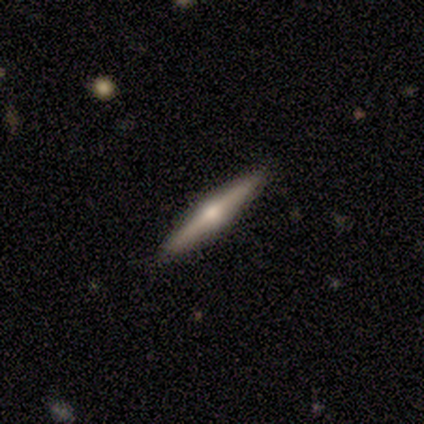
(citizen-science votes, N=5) Volunteers were most divided on "smooth or featured": featured or disk: 60%, smooth: 20%, star or artifact: 20%. More confident: edge-on disk — yes (100%); edge-on bulge — rounded (100%); merging — none (100%).